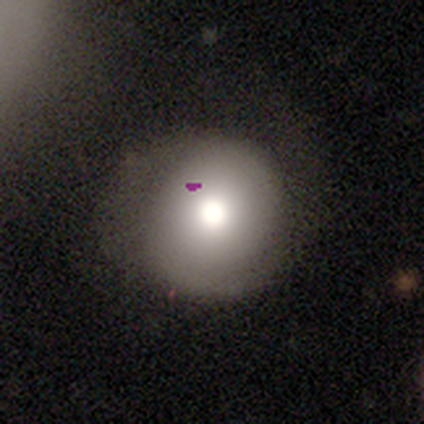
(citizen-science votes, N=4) Volunteers were most divided on "how rounded": round: 67%, in between: 33%, cigar-shaped: 0%. More confident: smooth or featured — smooth (75%); merging — none (67%).